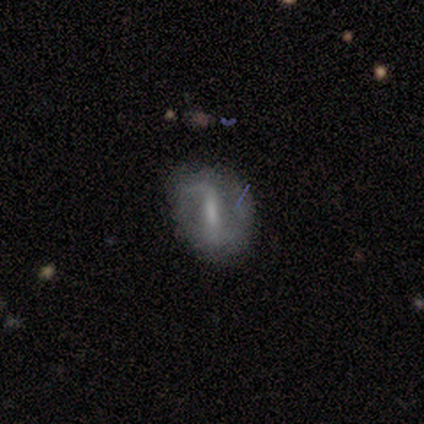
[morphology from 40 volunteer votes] type=featured or disk (75%); edge-on=no (97%); bar=strong (66%); spiral arms=yes (69%); winding=loose (50%); arm count=2 (80%); bulge=none (41%); merging=none (62%).